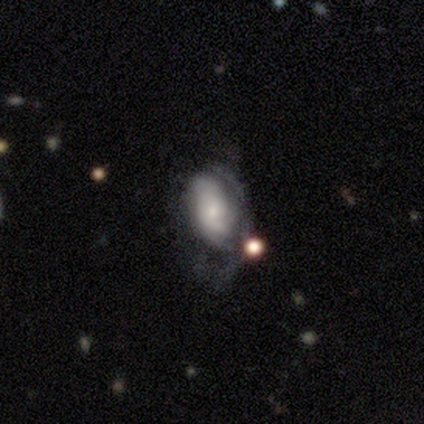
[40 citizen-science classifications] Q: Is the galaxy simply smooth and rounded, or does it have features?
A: featured or disk — 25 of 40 (62%).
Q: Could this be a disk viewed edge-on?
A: no — 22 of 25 (88%).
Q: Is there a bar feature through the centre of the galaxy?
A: no — 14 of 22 (64%).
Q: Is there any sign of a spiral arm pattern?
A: yes — 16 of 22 (73%).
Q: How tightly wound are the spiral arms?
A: medium — 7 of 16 (44%).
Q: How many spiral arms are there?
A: can't tell — 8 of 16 (50%).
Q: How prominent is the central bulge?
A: small — 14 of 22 (64%).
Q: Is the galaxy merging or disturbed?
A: none — 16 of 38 (42%).